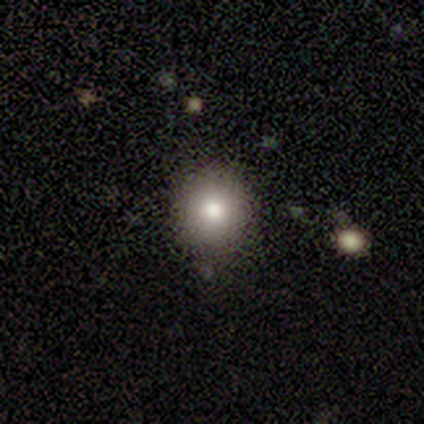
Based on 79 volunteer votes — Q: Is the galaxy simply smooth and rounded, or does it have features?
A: smooth — 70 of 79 (89%).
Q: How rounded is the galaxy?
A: round — 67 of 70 (96%).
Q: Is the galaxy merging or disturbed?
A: none — 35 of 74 (47%).